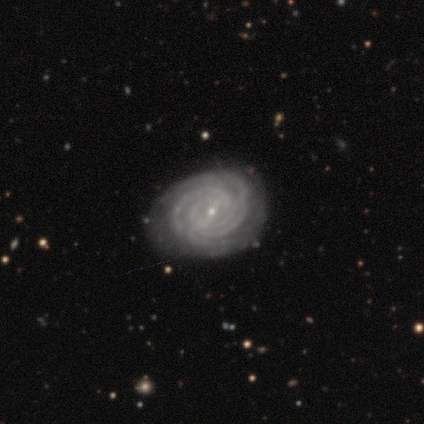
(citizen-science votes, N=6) featured or disk 83%, smooth 17%, star or artifact 0%. Down the decision tree: edge-on disk — no (100%); bar — weak (80%); spiral arms — yes (100%); spiral arm count — 4 (40%, tied with can't tell); spiral winding — tight (100%); bulge size — small (80%); merging — none (83%).